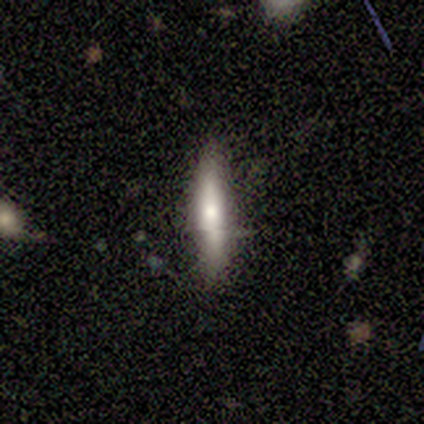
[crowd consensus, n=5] Volunteers were most divided on "merging": minor disturbance: 60%, none: 40%, major disturbance: 0%, merger: 0%. More confident: how rounded — cigar-shaped (100%); smooth or featured — smooth (80%).